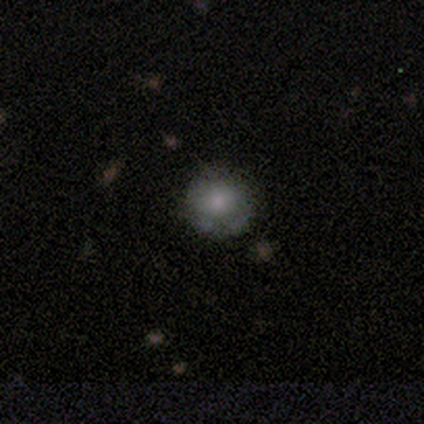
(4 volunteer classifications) Smooth or featured: smooth — 75% (star or artifact — 25%)
How rounded: round — 100%
Merging: none — 67% (minor disturbance — 33%)